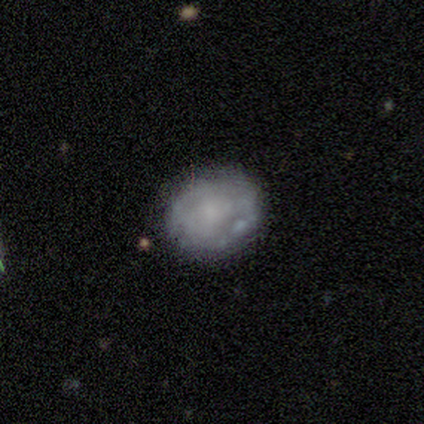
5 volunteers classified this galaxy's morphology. Smooth or featured?
  - smooth: 100% *
  - featured or disk: 0%
  - star or artifact: 0%
How rounded?
  - round: 80% *
  - in between: 20%
  - cigar-shaped: 0%
Merging?
  - none: 80% *
  - minor disturbance: 20%
  - major disturbance: 0%
  - merger: 0%